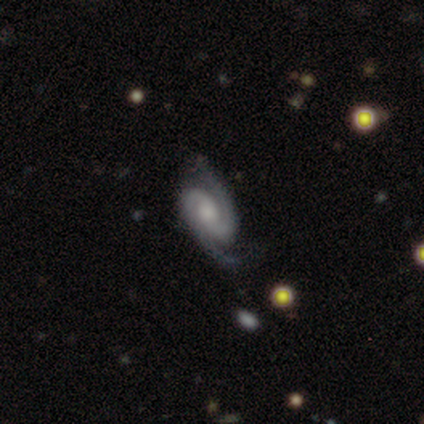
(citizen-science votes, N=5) This is clearly a featured or disk galaxy (100%). It is clearly not viewed edge-on (100%). Bar: likely no (60%). Spiral arm pattern: clearly yes (100%). Spiral arm count: clearly 2 (100%). Spiral winding: marginally tight (40%, tied with medium). Central bulge: marginally moderate (40%, tied with small). Merging: clearly none (80%).